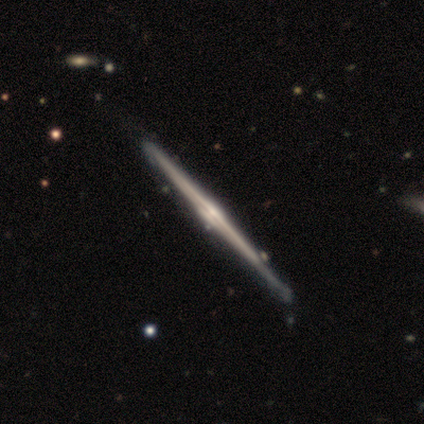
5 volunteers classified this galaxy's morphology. smooth_or_featured: featured or disk (p=0.60) [alt: smooth p=0.40]
disk_edge_on: yes (p=1.00)
edge_on_bulge: rounded (p=1.00)
merging: none (p=0.80) [alt: merger p=0.20]